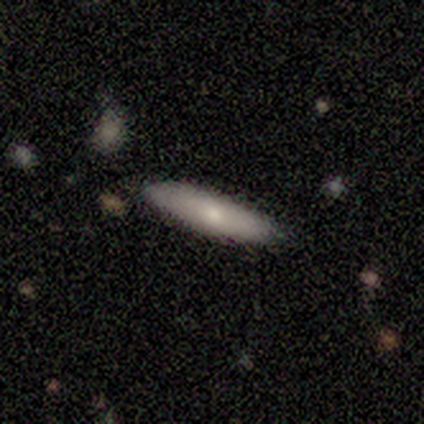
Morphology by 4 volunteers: This is possibly a smooth galaxy (50%, tied with featured or disk). How rounded: clearly cigar-shaped (100%). Merging: clearly none (100%).